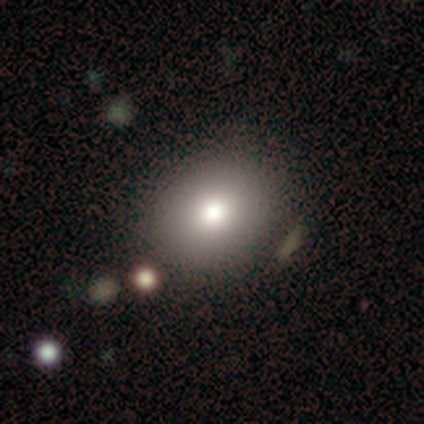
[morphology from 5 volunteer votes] Smooth or featured? smooth (80%)
How rounded? round (75%)
Merging? none (100%)